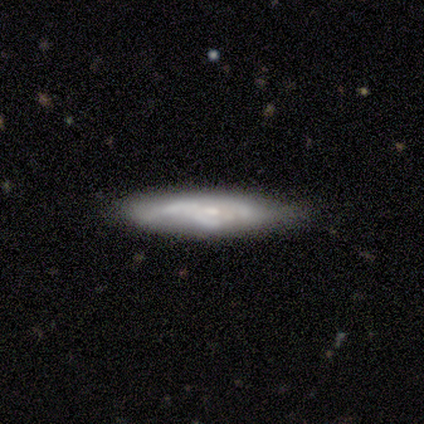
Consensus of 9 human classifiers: This is likely a featured or disk galaxy (67%). It is possibly viewed edge-on (50%, tied with no). Edge-on bulge: likely none (67%). Merging: possibly minor disturbance (56%).